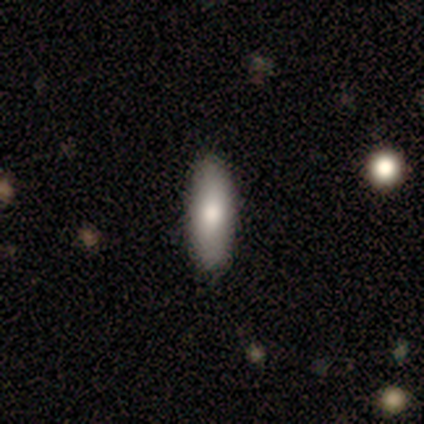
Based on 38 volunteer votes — smooth_or_featured: smooth (p=0.79) [alt: featured or disk p=0.13]
how_rounded: cigar-shaped (p=0.53) [alt: in between p=0.47]
merging: none (p=0.89) [alt: minor disturbance p=0.11]